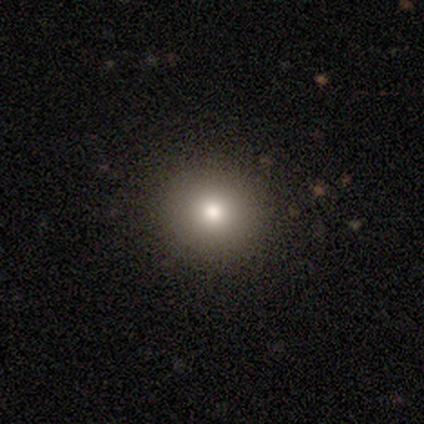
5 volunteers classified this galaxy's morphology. This appears to be a smooth galaxy with no disk features (80%) that is round (100%). Merging: none (100%).